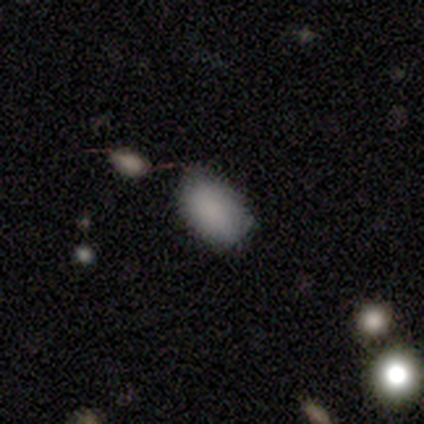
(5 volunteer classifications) smooth-or-featured: smooth: 100% | featured or disk: 0% | star or artifact: 0%
  how-rounded: in between: 100% | round: 0% | cigar-shaped: 0%
  merging: none: 80% | minor disturbance: 20% | major disturbance: 0% | merger: 0%